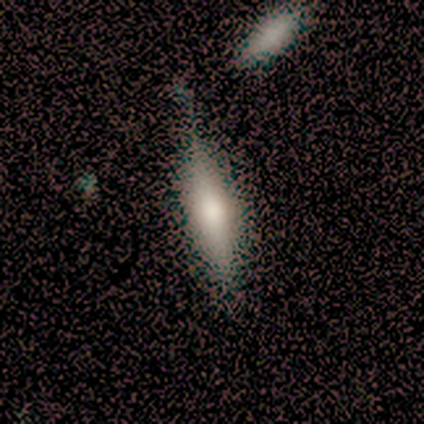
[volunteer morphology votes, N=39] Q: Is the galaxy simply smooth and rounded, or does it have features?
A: smooth — 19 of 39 (49%, tied with featured or disk).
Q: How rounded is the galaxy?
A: cigar-shaped — 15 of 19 (79%).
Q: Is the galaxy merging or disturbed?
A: none — 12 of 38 (32%).